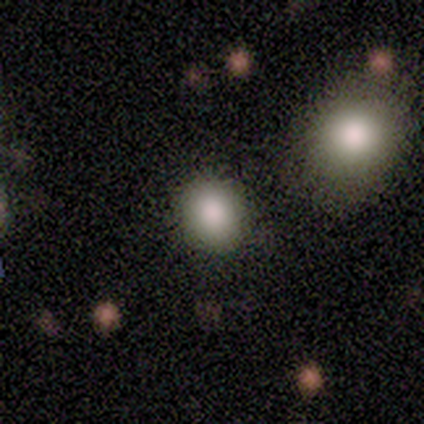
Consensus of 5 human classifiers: Morphology: type=smooth (80%); roundness=round (100%); merging=none (100%).